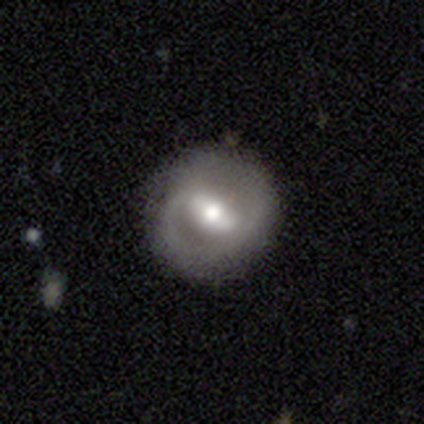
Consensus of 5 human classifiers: Smooth or featured? featured or disk (60%)
Edge-on disk? no (100%)
Bar? strong (100%)
Spiral arms? yes (67%)
Spiral winding? medium (100%)
Spiral arm count? 2 (100%)
Bulge size? moderate (67%)
Merging? none (100%)